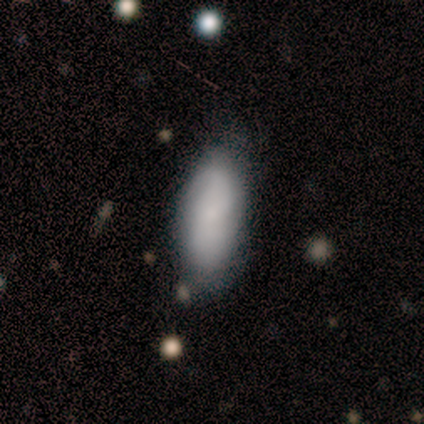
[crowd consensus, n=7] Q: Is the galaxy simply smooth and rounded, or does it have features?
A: smooth — 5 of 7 (71%).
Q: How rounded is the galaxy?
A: in between — 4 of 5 (80%).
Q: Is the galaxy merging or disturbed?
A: none — 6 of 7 (86%).